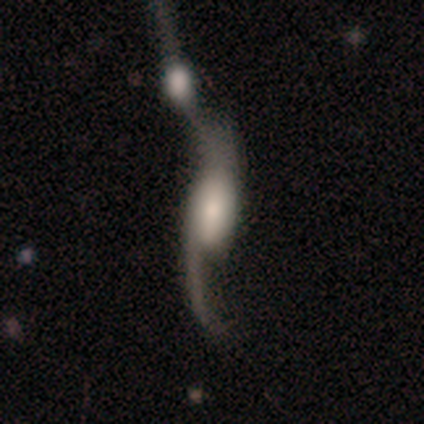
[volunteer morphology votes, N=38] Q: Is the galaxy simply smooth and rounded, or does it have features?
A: featured or disk — 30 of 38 (79%).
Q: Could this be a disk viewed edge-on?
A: no — 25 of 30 (83%).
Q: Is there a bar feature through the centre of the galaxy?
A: strong — 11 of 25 (44%).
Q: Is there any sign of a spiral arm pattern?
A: yes — 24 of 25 (96%).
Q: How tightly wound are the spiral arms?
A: loose — 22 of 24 (92%).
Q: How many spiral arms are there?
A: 2 — 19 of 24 (79%).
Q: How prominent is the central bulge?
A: large — 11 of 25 (44%).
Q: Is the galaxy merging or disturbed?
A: merger — 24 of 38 (63%).